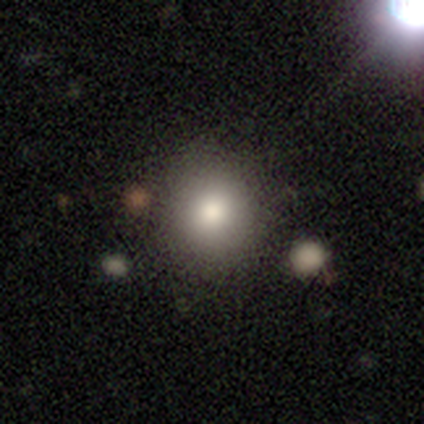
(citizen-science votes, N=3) A smooth galaxy with no disk features (100%) that is round (100%).

Vote fractions:
- Smooth or featured? smooth: 100% / featured or disk: 0% / star or artifact: 0%
- How rounded? round: 100% / in between: 0% / cigar-shaped: 0%
- Merging? none: 100% / minor disturbance: 0% / major disturbance: 0% / merger: 0%